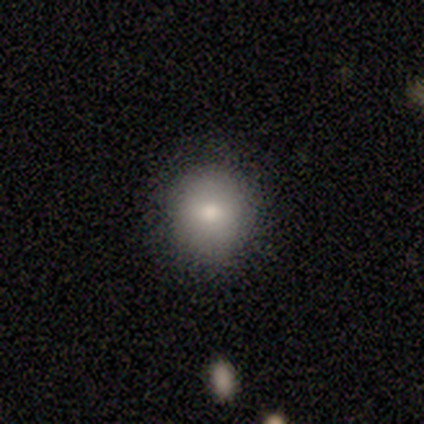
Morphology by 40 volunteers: Overall: smooth (75%). How rounded: round (77%). Merging: none (94%).